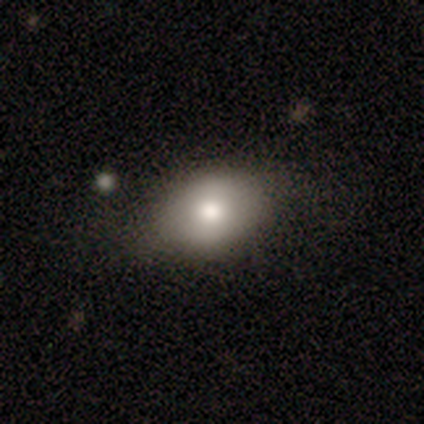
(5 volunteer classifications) smooth 80%, featured or disk 20%, star or artifact 0%. Down the decision tree: how rounded — in between (100%); merging — none (80%).